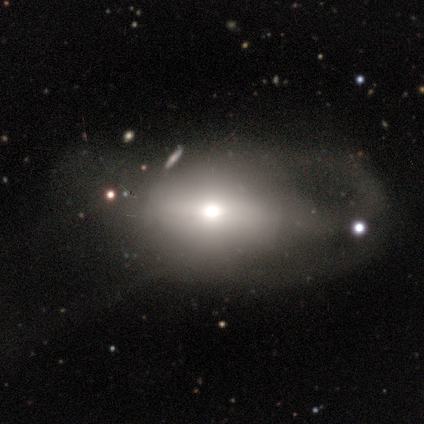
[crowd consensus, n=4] Smooth or featured?
  - featured or disk: 75% *
  - smooth: 25%
  - star or artifact: 0%
Edge-on disk?
  - no: 100% *
  - yes: 0%
Bar?
  - strong: 33% * (tied)
  - weak: 33% * (tied)
  - no: 33% * (tied)
Spiral arms?
  - no: 100% *
  - yes: 0%
Bulge size?
  - large: 67% *
  - moderate: 33%
  - dominant: 0%
  - small: 0%
  - none: 0%
Merging?
  - minor disturbance: 75% *
  - major disturbance: 25%
  - none: 0%
  - merger: 0%